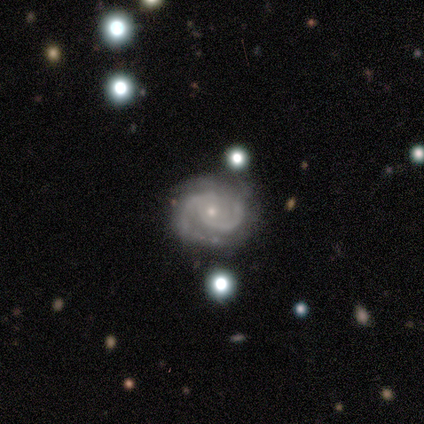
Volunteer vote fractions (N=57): Q: Smooth or featured?
A: featured or disk (93%); runner-up: star or artifact (5%)
Q: Edge-on disk?
A: no (98%); runner-up: yes (2%)
Q: Bar?
A: no (83%); runner-up: weak (13%)
Q: Spiral arms?
A: yes (100%)
Q: Spiral winding?
A: tight (65%); runner-up: medium (31%)
Q: Spiral arm count?
A: 2 (69%); runner-up: 3 (21%)
Q: Bulge size?
A: small (88%); runner-up: moderate (10%)
Q: Merging?
A: none (70%); runner-up: minor disturbance (20%)